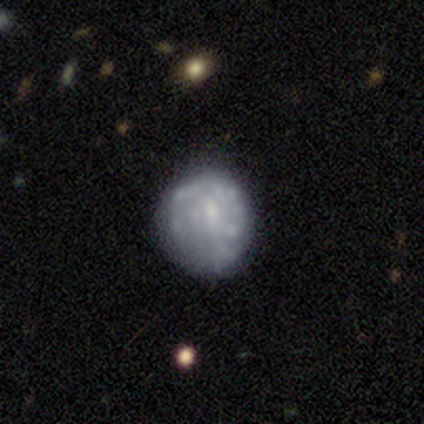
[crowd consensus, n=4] Q: Smooth or featured?
A: featured or disk (75%); runner-up: smooth (25%)
Q: Edge-on disk?
A: no (100%)
Q: Bar?
A: no (67%); runner-up: weak (33%)
Q: Spiral arms?
A: no (67%); runner-up: yes (33%)
Q: Bulge size?
A: small (67%); runner-up: moderate (33%)
Q: Merging?
A: none (50%); runner-up: minor disturbance (25%)